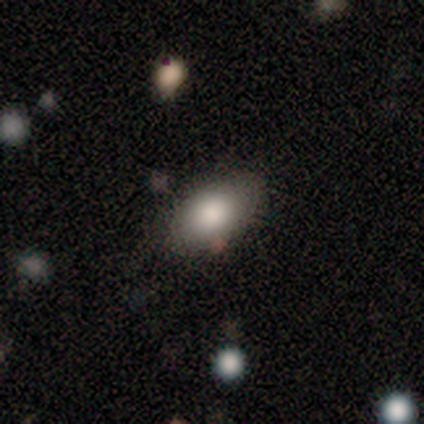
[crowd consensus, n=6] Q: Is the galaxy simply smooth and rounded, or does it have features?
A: smooth — 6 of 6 (100%).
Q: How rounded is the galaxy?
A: in between — 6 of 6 (100%).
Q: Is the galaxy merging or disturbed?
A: none — 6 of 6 (100%).